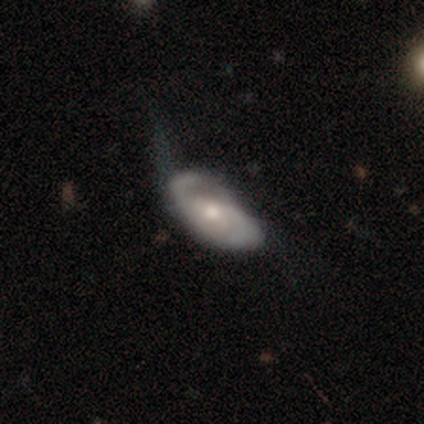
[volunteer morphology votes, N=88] This appears to be a featured or disk galaxy (74%) with no bar (73%), 2 (75%) medium (47%) spiral arms (89%) and a moderate central bulge (55%). Merging: none (38%).